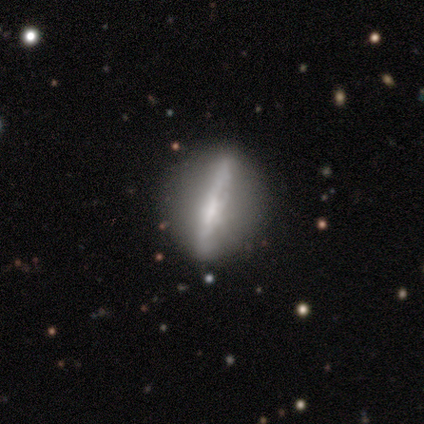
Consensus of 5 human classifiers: smooth_or_featured: featured or disk (p=0.80) [alt: smooth p=0.20]
disk_edge_on: yes (p=0.50) [tied with: no p=0.50]
edge_on_bulge: none (p=0.50) [tied with: rounded p=0.50]
merging: none (p=1.00)